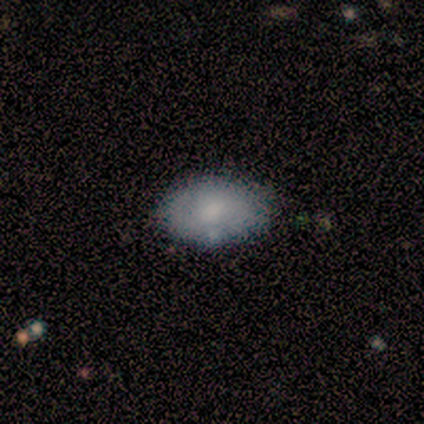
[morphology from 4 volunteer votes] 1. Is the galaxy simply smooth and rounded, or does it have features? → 50% smooth (tied), 50% featured or disk (tied), 0% star or artifact.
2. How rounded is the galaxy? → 100% in between, 0% round, 0% cigar-shaped.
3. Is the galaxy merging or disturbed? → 50% none, 25% minor disturbance, 25% merger, 0% major disturbance.